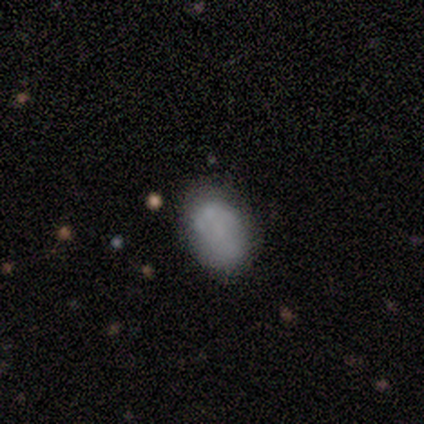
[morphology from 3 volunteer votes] smooth 33% (tied), featured or disk 33% (tied), star or artifact 33% (tied). Down the decision tree: how rounded — in between (100%); merging — none (100%).